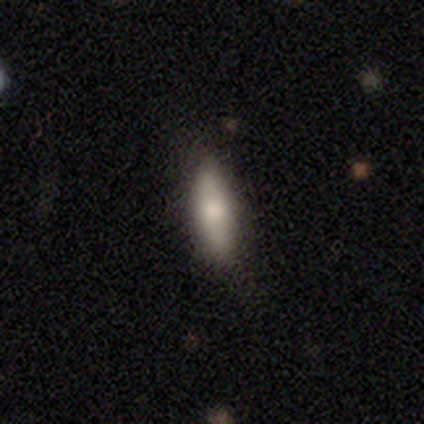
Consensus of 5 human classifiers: This is likely a smooth galaxy (60%). How rounded: likely in between (67%). Merging: likely none (75%).